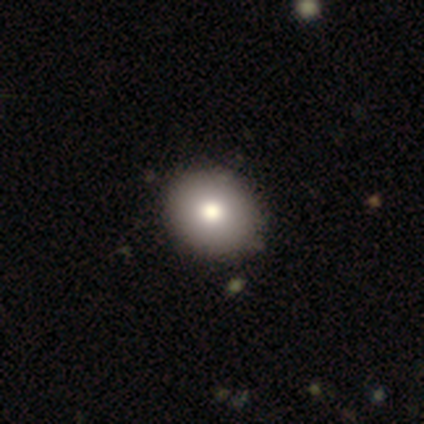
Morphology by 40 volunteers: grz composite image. It shows a smooth galaxy with no disk features (95%) that is round (53%). Merging: none (69%).